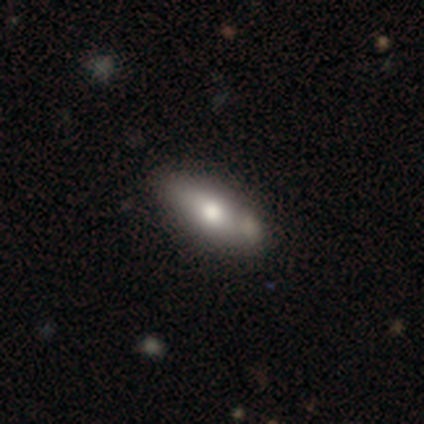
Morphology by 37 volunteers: A smooth galaxy with no disk features (59%) that is in between round and cigar-shaped (91%). Merging: none (75%).